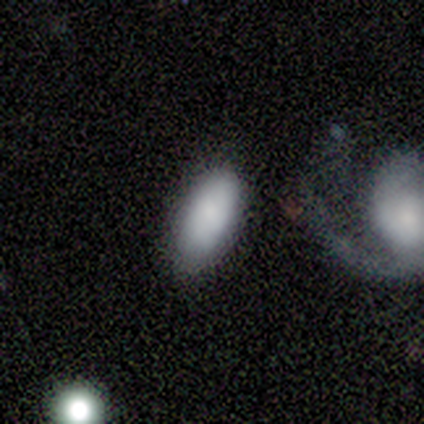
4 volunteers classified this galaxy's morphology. Smooth or featured? 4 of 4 (100%) said smooth. How rounded? 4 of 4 (100%) said in between. Merging? 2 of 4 (50%) said none.